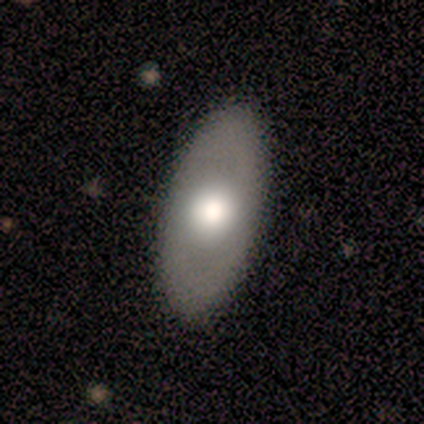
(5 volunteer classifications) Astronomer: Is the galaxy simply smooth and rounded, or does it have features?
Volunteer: featured or disk — 60% (runner-up: smooth, 40%).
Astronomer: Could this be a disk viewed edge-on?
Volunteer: no — 100%.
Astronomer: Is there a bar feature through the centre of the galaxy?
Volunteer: no — 67%.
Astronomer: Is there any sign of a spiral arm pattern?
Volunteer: yes — 67%.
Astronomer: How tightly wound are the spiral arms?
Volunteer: tight — 50%, tied with medium at 50%.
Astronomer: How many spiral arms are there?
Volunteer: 2 — 50%, tied with can't tell at 50%.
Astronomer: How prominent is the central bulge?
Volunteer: large — 67%.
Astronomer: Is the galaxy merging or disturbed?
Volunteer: none — 100%.